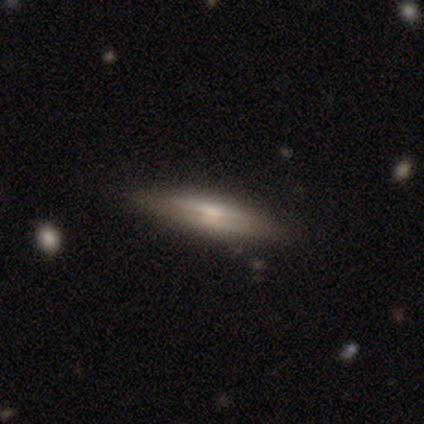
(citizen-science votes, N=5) A featured or disk galaxy (60%) viewed edge-on (100%) with a rounded central bulge (100%).

Vote fractions:
- Smooth or featured? featured or disk: 60% / smooth: 40% / star or artifact: 0%
- Edge-on disk? yes: 100% / no: 0%
- Edge-on bulge? rounded: 100% / boxy: 0% / none: 0%
- Merging? none: 100% / minor disturbance: 0% / major disturbance: 0% / merger: 0%